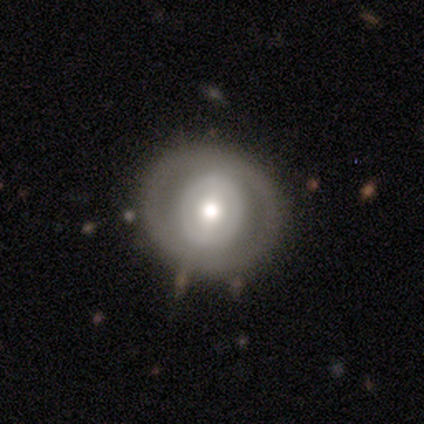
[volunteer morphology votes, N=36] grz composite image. It shows a smooth galaxy with no disk features (44%) that is round (81%). Merging: none (71%).